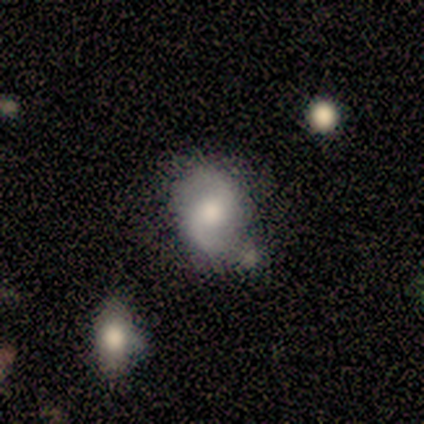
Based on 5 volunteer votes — smooth_or_featured: featured or disk (p=0.60) [alt: smooth p=0.20]
disk_edge_on: no (p=1.00)
bar: weak (p=0.67) [alt: no p=0.33]
has_spiral_arms: yes (p=1.00)
spiral_winding: loose (p=0.67) [alt: medium p=0.33]
spiral_arm_count: 2 (p=1.00)
bulge_size: moderate (p=1.00)
merging: none (p=0.50) [tied with: minor disturbance p=0.50]